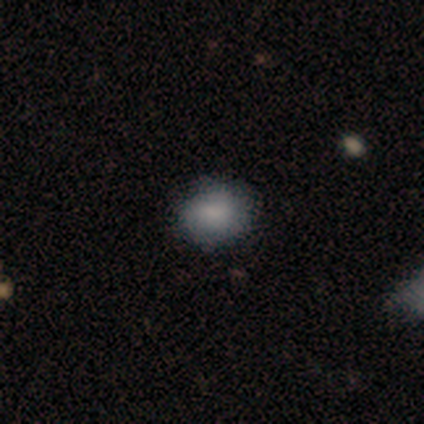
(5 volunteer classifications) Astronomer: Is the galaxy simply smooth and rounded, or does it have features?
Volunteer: smooth — 100%.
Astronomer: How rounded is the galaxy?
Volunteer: in between — 60% (runner-up: round, 40%).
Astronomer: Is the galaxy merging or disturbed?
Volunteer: none — 60% (runner-up: minor disturbance, 40%).